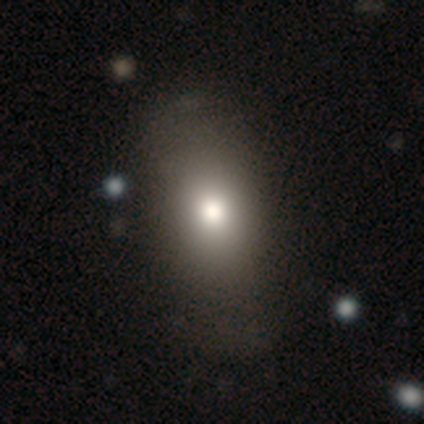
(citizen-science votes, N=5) Smooth or featured?
  - smooth: 100% *
  - featured or disk: 0%
  - star or artifact: 0%
How rounded?
  - in between: 60% *
  - round: 20%
  - cigar-shaped: 20%
Merging?
  - none: 80% *
  - minor disturbance: 20%
  - major disturbance: 0%
  - merger: 0%